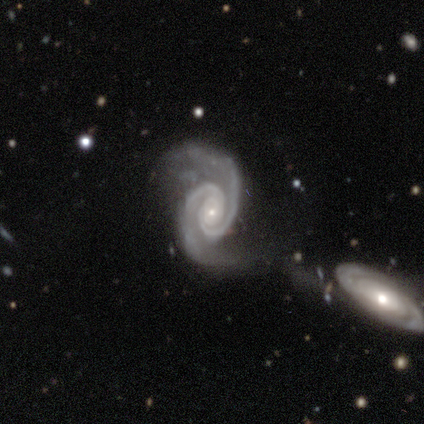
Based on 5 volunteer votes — Morphology: type=featured or disk (100%); edge-on=no (100%); bar=no (60%); spiral arms=yes (100%); winding=tight (60%); arm count=2 (100%); bulge=small (100%); merging=major disturbance (60%).